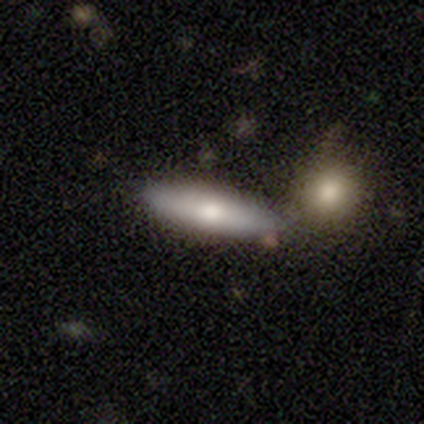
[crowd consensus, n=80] This is likely a smooth galaxy (72%). How rounded: possibly cigar-shaped (59%). Merging: marginally none (35%).